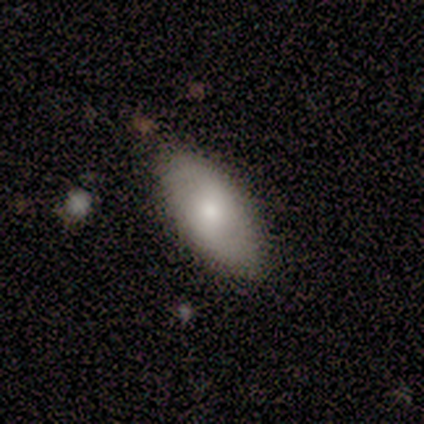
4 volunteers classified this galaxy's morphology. smooth-or-featured: smooth: 75% | featured or disk: 25% | star or artifact: 0%
  how-rounded: in between: 100% | round: 0% | cigar-shaped: 0%
  merging: none: 75% | major disturbance: 25% | minor disturbance: 0% | merger: 0%